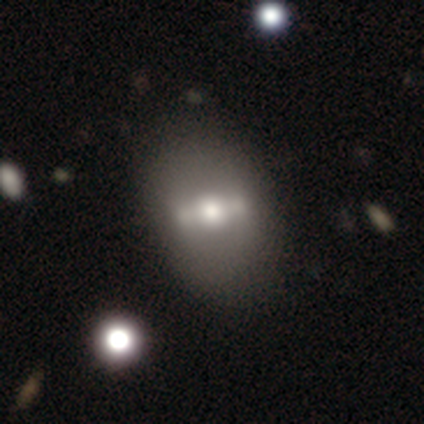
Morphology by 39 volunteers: Smooth or featured: featured or disk — 59% (smooth — 33%)
Edge-on disk: no — 87% (yes — 13%)
Bar: strong — 60% (weak — 25%)
Spiral arms: no — 100%
Bulge size: moderate — 75% (large — 15%)
Merging: none — 53% (major disturbance — 6%)